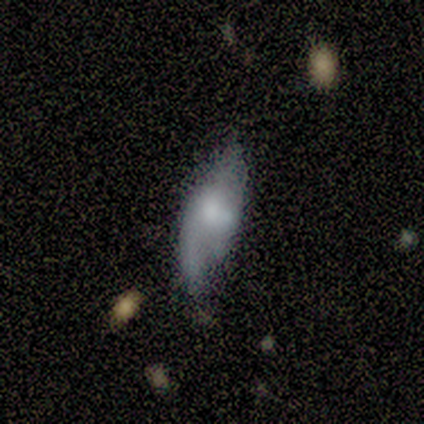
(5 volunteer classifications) Morphology: type=featured or disk (80%); edge-on=no (100%); bar=no (75%); spiral arms=yes (100%); winding=loose (75%); arm count=2 (75%); bulge=moderate (50%, tied with small); merging=merger (40%).